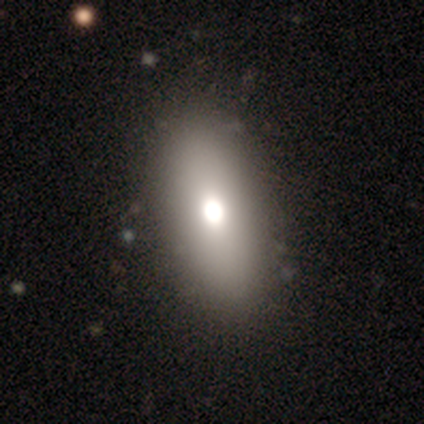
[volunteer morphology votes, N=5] Q: Smooth or featured?
A: smooth (80%); runner-up: featured or disk (20%)
Q: How rounded?
A: in between (100%)
Q: Merging?
A: none (80%); runner-up: minor disturbance (20%)